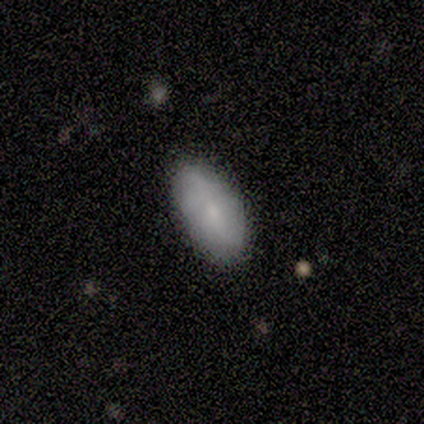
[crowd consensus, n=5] Smooth or featured? smooth (80%)
How rounded? in between (100%)
Merging? none (100%)